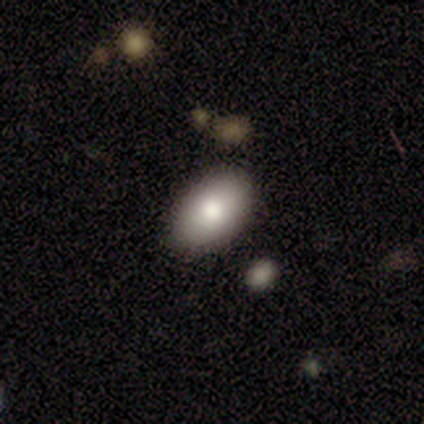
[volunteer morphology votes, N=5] This appears to be a smooth galaxy with no disk features (80%) that is in between round and cigar-shaped (100%). Merging: none (80%).